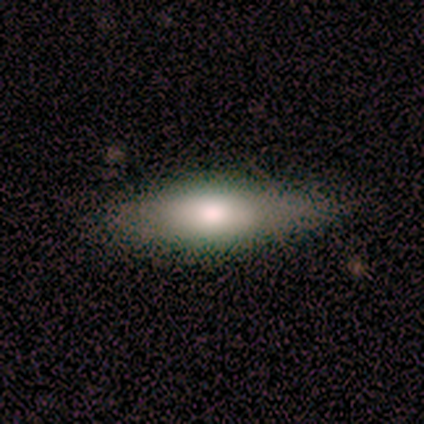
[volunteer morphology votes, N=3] Overall: smooth (67%; featured or disk 33%). How rounded: in between (50%, tied with cigar-shaped). Merging: none (67%; minor disturbance 33%).